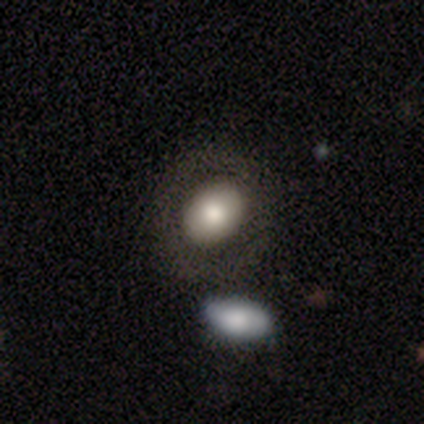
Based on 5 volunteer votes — smooth 100%, featured or disk 0%, star or artifact 0%. Down the decision tree: how rounded — in between (60%); merging — none (80%).